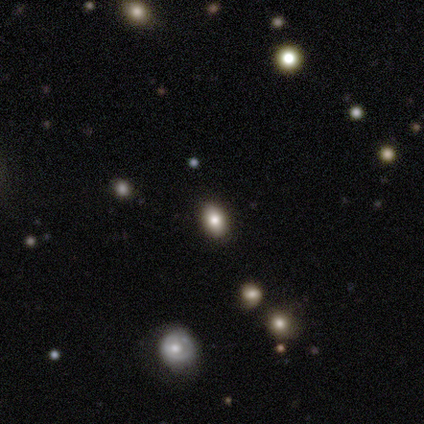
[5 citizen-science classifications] A star or artifact, not a galaxy (60%).

Vote fractions:
- Smooth or featured? star or artifact: 60% / smooth: 40% / featured or disk: 0%